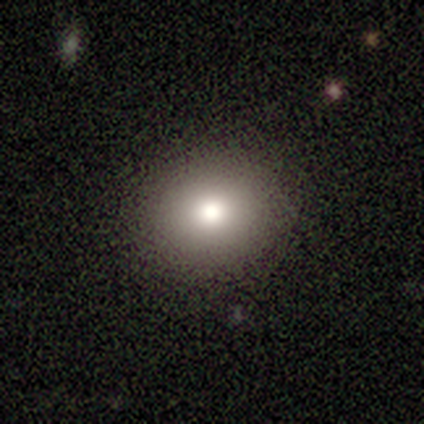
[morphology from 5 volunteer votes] Overall: smooth (60%; featured or disk 20%). How rounded: round (100%). Merging: none (100%).